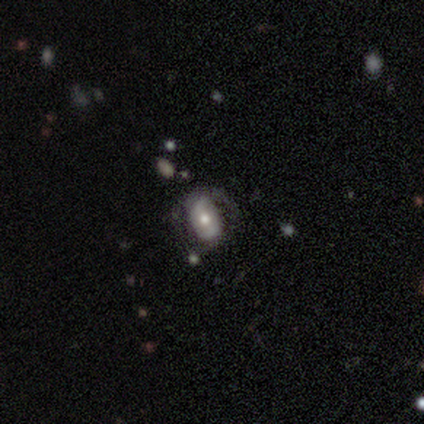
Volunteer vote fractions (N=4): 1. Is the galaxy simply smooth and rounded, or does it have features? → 50% smooth (tied), 50% featured or disk (tied), 0% star or artifact.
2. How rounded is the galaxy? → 50% round (tied), 50% in between (tied), 0% cigar-shaped.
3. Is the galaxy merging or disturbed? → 50% none (tied), 50% minor disturbance (tied), 0% major disturbance, 0% merger.